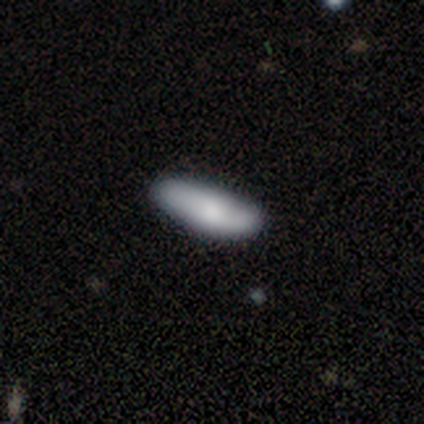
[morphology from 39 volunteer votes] This is likely a smooth galaxy (77%). How rounded: possibly in between (57%). Merging: clearly none (89%).